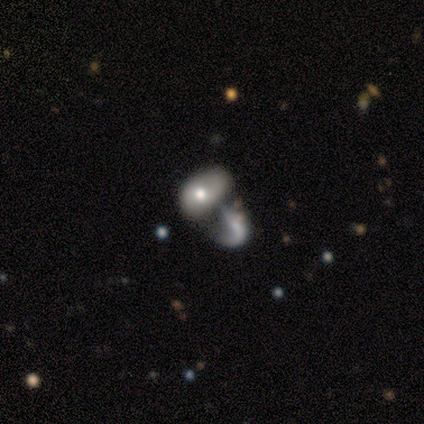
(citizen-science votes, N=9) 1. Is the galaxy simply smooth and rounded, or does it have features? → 67% smooth, 33% featured or disk, 0% star or artifact.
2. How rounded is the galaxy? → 100% in between, 0% round, 0% cigar-shaped.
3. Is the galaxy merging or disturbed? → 56% merger, 22% minor disturbance, 11% none, 11% major disturbance.